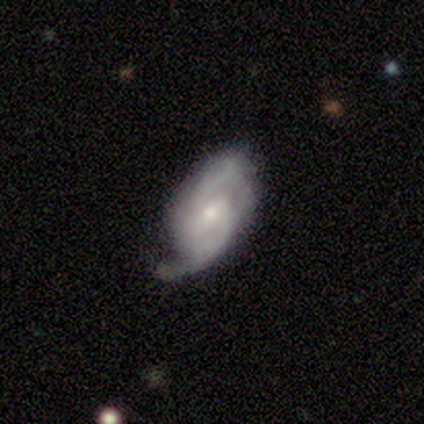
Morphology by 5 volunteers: Smooth or featured? 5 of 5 (100%) said featured or disk. Edge-on disk? 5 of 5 (100%) said no. Bar? 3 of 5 (60%) said no. Spiral arms? 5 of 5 (100%) said yes. Spiral winding? 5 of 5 (100%) said medium. Spiral arm count? 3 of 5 (60%) said 2. Bulge size? 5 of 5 (100%) said small. Merging? 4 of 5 (80%) said none.